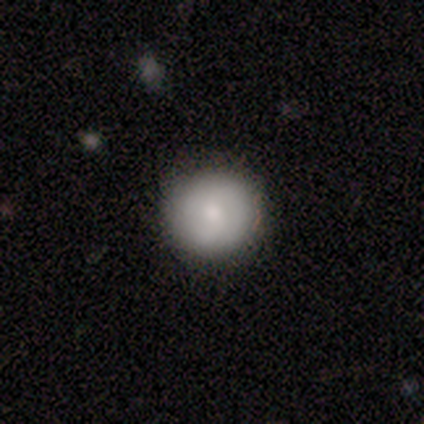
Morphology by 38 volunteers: type=smooth (71%); roundness=round (96%); merging=none (92%).